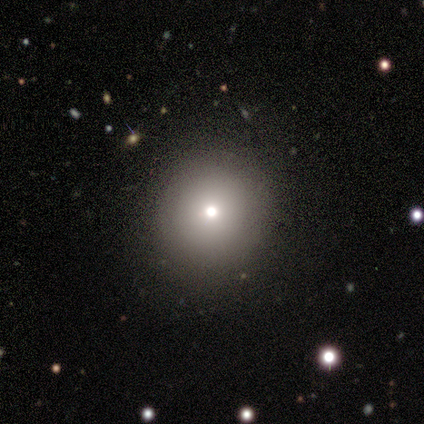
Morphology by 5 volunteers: This appears to be a smooth galaxy with no disk features (80%) that is round (100%). Merging: none (100%).